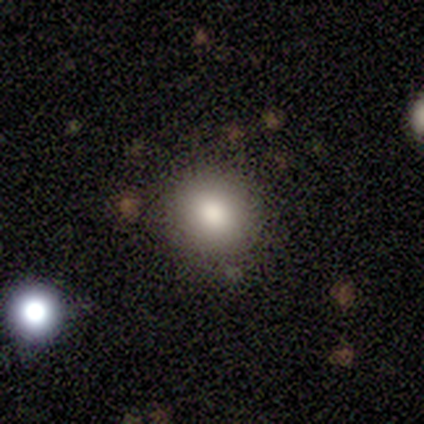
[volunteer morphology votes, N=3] Q: Smooth or featured?
A: featured or disk (67%); runner-up: smooth (33%)
Q: Edge-on disk?
A: no (100%)
Q: Bar?
A: no (100%)
Q: Spiral arms?
A: no (100%)
Q: Bulge size?
A: large (50%); tied with: moderate (50%)
Q: Merging?
A: none (67%); runner-up: minor disturbance (33%)